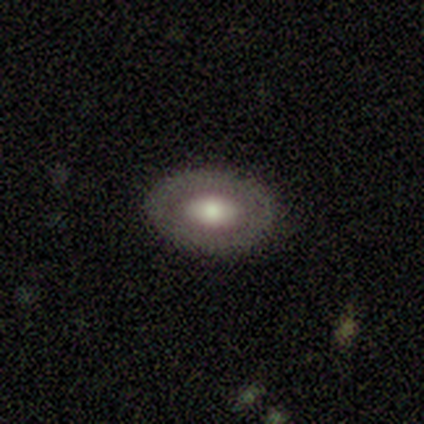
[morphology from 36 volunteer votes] featured or disk 58%, smooth 39%, star or artifact 3%. Down the decision tree: edge-on disk — no (95%); bar — no (75%); spiral arms — no (90%); bulge size — moderate (60%); merging — none (77%).